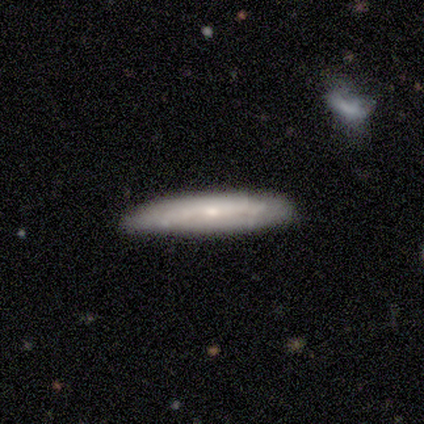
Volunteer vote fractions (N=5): Q: Smooth or featured?
A: featured or disk (40%); tied with: star or artifact (40%)
Q: Edge-on disk?
A: no (100%)
Q: Bar?
A: no (100%)
Q: Spiral arms?
A: no (100%)
Q: Bulge size?
A: moderate (50%); tied with: small (50%)
Q: Merging?
A: none (100%)